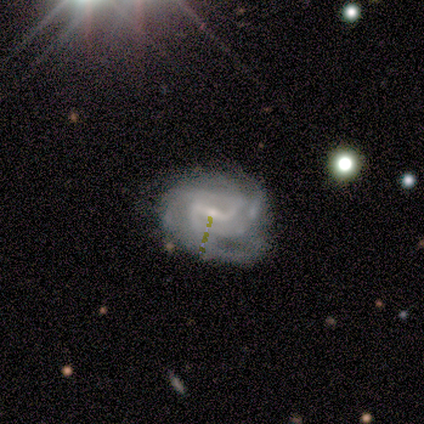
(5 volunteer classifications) A featured or disk galaxy (100%) with a weak bar (60%), 3 (60%) tight (80%) spiral arms (100%) and a small central bulge (60%). Merging: none (80%).